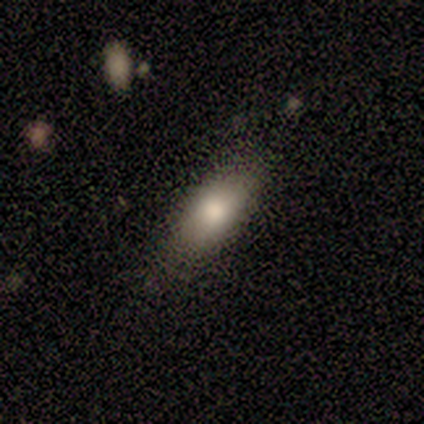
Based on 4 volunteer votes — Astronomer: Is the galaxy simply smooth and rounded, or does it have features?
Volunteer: smooth — 75%.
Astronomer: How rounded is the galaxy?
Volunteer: in between — 67%.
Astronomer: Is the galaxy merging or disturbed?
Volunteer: none — 100%.